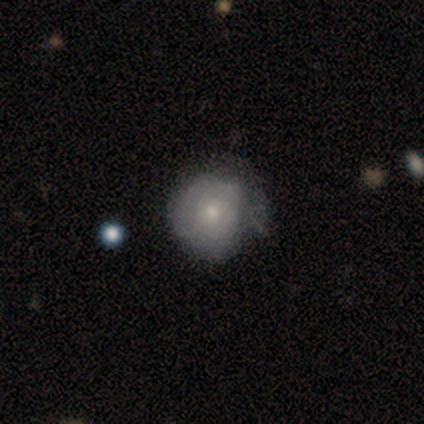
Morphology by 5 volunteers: Smooth or featured?
  - smooth: 60% *
  - featured or disk: 40%
  - star or artifact: 0%
How rounded?
  - round: 100% *
  - in between: 0%
  - cigar-shaped: 0%
Merging?
  - none: 60% *
  - minor disturbance: 20%
  - major disturbance: 20%
  - merger: 0%